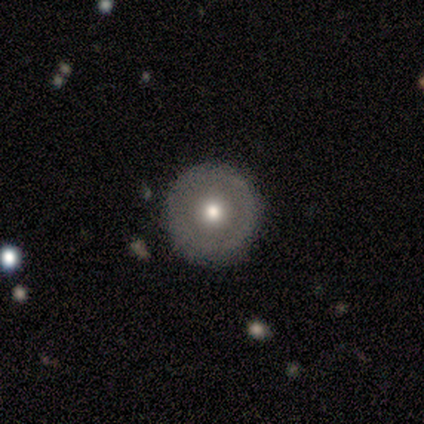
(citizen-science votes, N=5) This appears to be a smooth galaxy with no disk features (60%) that is round (100%). Merging: none (100%).